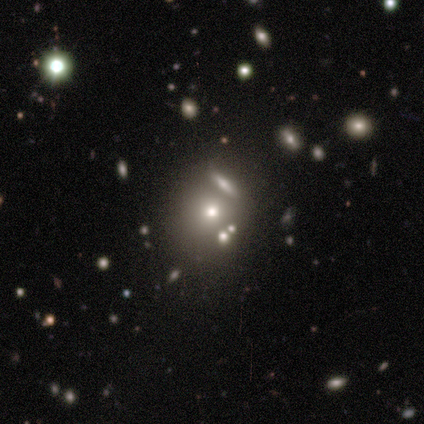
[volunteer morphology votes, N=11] This is possibly a smooth galaxy (45%, tied with star or artifact). How rounded: clearly round (80%). Merging: possibly none (50%).